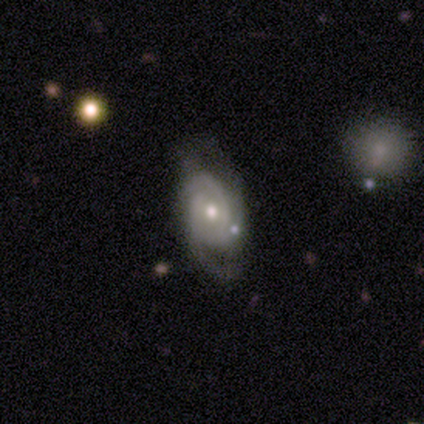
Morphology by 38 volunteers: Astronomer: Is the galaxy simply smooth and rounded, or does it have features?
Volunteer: featured or disk — 79%.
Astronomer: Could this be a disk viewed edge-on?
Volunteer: no — 87%.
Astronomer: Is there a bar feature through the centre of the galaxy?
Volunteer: no — 54% (runner-up: weak, 35%).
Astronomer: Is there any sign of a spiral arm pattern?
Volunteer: yes — 88%.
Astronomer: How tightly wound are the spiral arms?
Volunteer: tight — 52% (runner-up: medium, 35%).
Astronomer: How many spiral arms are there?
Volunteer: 3 — 48% (runner-up: 2, 35%).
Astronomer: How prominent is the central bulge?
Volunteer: moderate — 62%.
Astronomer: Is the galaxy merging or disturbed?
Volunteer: none — 62%.